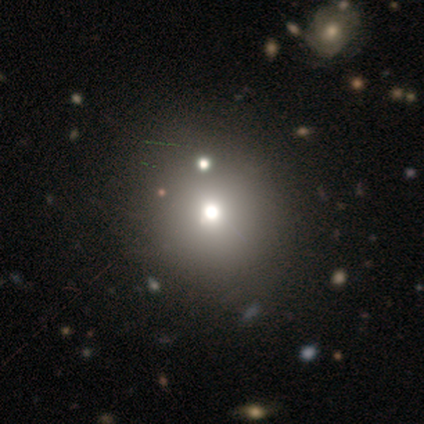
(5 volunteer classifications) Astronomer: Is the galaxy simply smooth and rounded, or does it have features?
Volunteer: smooth — 40%, tied with star or artifact at 40%.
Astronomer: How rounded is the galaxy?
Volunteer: round — 50%, tied with in between at 50%.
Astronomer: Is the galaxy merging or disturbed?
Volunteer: none — 100%.